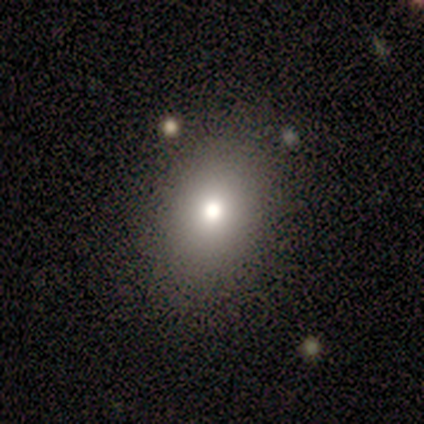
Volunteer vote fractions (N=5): Smooth or featured: featured or disk — 60% (smooth — 40%)
Edge-on disk: no — 100%
Bar: no — 100%
Spiral arms: no — 100%
Bulge size: small — 67% (moderate — 33%)
Merging: none — 100%